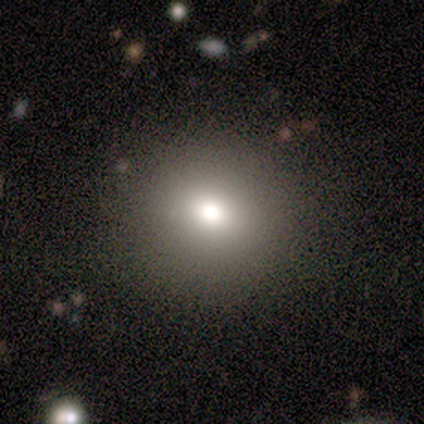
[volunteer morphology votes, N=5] Smooth or featured?
  - star or artifact: 60% *
  - smooth: 40%
  - featured or disk: 0%